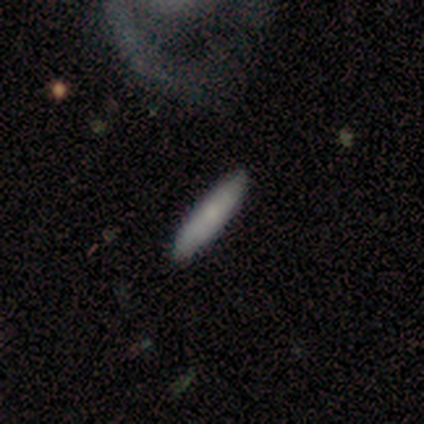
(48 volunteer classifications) A smooth galaxy with no disk features (85%) that is cigar-shaped (85%). Merging: none (90%).